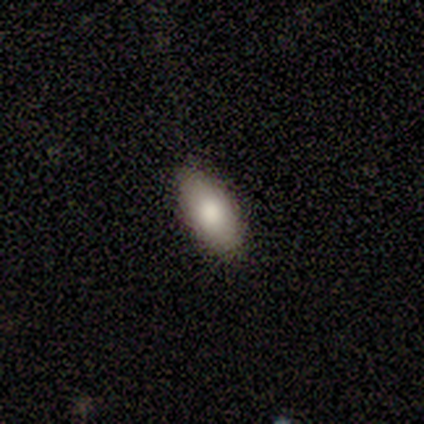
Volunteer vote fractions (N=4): smooth 100%, featured or disk 0%, star or artifact 0%. Down the decision tree: how rounded — in between (75%); merging — none (100%).